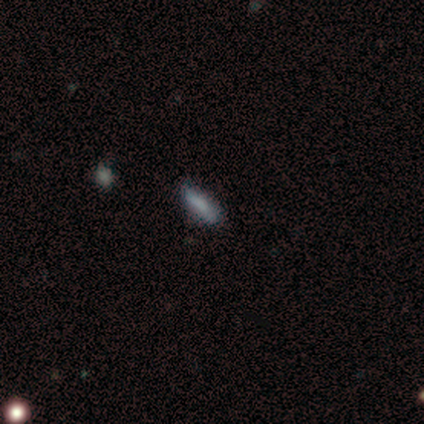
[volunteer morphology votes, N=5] smooth_or_featured: smooth (p=0.80) [alt: star or artifact p=0.20]
how_rounded: cigar-shaped (p=0.75) [alt: in between p=0.25]
merging: none (p=0.50) [alt: minor disturbance p=0.25]